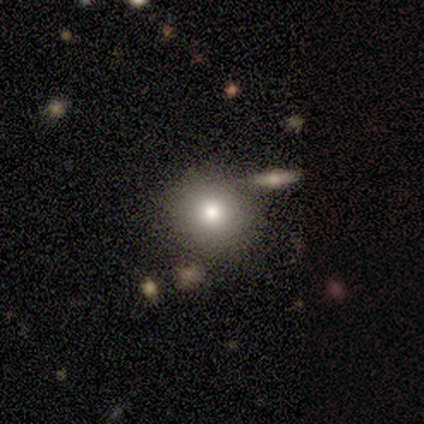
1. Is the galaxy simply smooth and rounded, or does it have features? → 86% smooth, 14% featured or disk, 0% star or artifact.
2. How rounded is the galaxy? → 83% round, 17% in between, 0% cigar-shaped.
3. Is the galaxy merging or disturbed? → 71% none, 14% minor disturbance, 14% major disturbance, 0% merger.